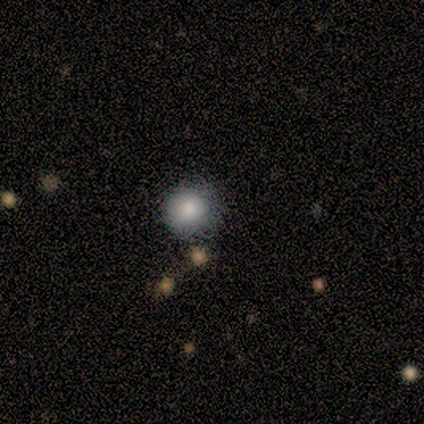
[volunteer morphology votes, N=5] A smooth galaxy with no disk features (80%) that is round (100%). Merging: none (100%).